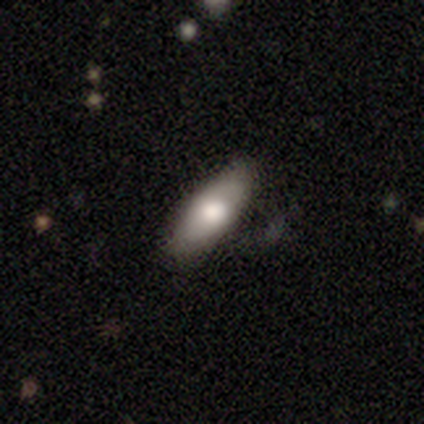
Smooth or featured? 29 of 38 (76%) said smooth. How rounded? 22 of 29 (76%) said in between. Merging? 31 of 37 (84%) said none.